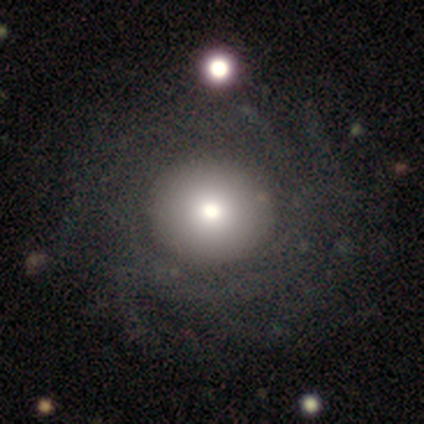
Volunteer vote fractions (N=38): This is possibly a smooth galaxy (55%). How rounded: clearly round (90%). Merging: likely none (66%).